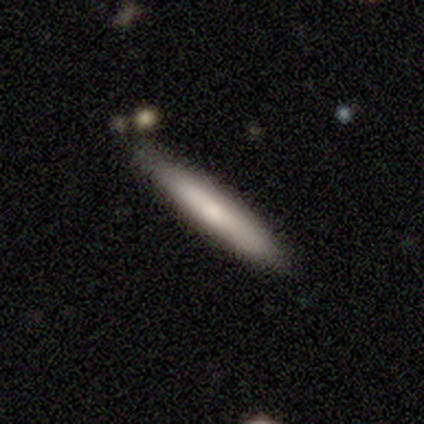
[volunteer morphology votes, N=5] Volunteers were most divided on "smooth or featured": smooth: 60%, featured or disk: 40%, star or artifact: 0%. More confident: how rounded — cigar-shaped (100%); merging — none (100%).